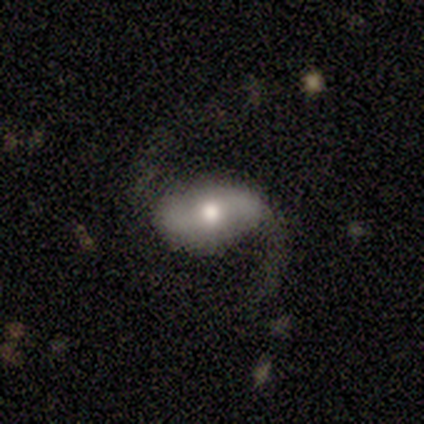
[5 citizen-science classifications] This appears to be a featured or disk galaxy (100%) with a strong bar (40%, tied with no), 2 (100%) loose (75%) spiral arms (80%) and a moderate central bulge (80%). Merging: none (80%).